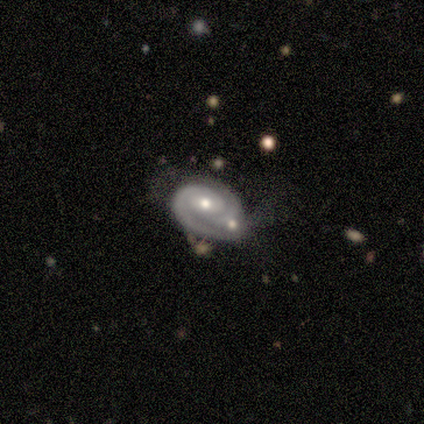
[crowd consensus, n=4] Smooth or featured? 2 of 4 (50%, tied with featured or disk) said smooth. How rounded? 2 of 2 (100%) said in between. Merging? 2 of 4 (50%, tied with merger) said minor disturbance.